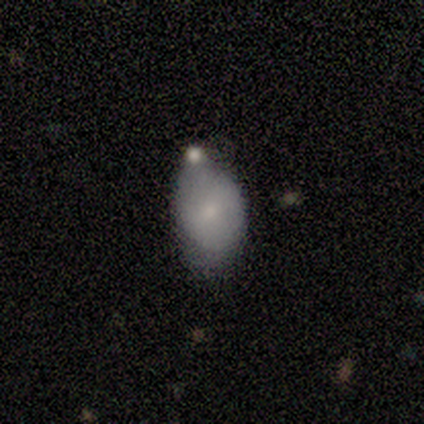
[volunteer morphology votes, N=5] A smooth galaxy with no disk features (40%, tied with featured or disk) that is round (50%, tied with in between).

Vote fractions:
- Smooth or featured? smooth: 40% (tied) / featured or disk: 40% (tied) / star or artifact: 20%
- How rounded? round: 50% (tied) / in between: 50% (tied) / cigar-shaped: 0%
- Merging? none: 75% / minor disturbance: 25% / major disturbance: 0% / merger: 0%